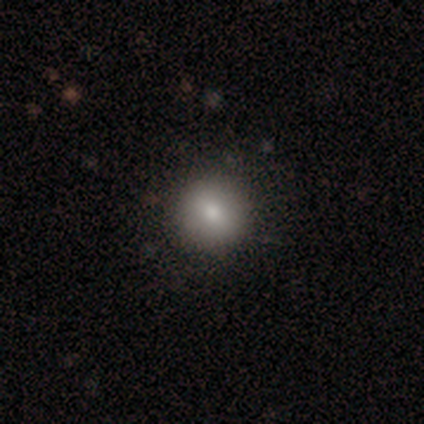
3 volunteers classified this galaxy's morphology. Consensus on every question: smooth or featured — smooth (100%); how rounded — round (100%); merging — none (100%).